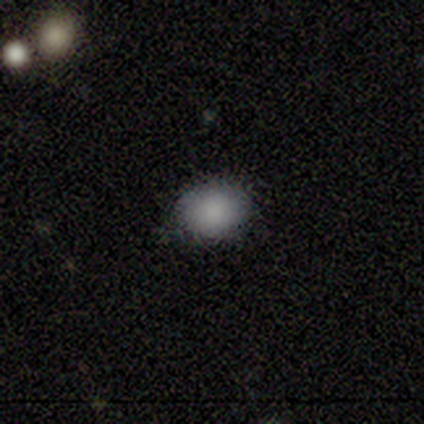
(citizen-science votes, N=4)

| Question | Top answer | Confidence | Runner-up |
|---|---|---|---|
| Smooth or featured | smooth | 100% | — |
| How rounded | round | 100% | — |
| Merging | none | 100% | — |